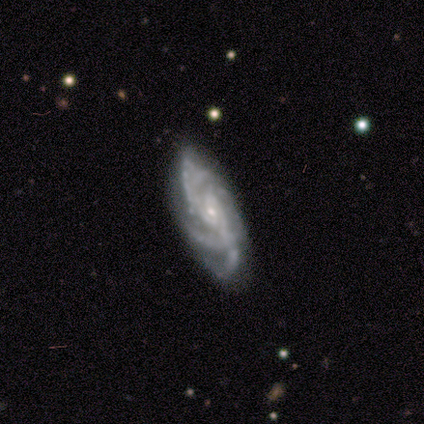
Smooth or featured?
  - featured or disk: 80% *
  - smooth: 20%
  - star or artifact: 0%
Edge-on disk?
  - no: 100% *
  - yes: 0%
Bar?
  - no: 50% *
  - strong: 25%
  - weak: 25%
Spiral arms?
  - yes: 100% *
  - no: 0%
Spiral winding?
  - medium: 75% *
  - tight: 25%
  - loose: 0%
Spiral arm count?
  - 4: 50% *
  - 2: 25%
  - more than 4: 25%
  - 1: 0%
  - 3: 0%
  - can't tell: 0%
Bulge size?
  - small: 100% *
  - dominant: 0%
  - large: 0%
  - moderate: 0%
  - none: 0%
Merging?
  - none: 60% *
  - minor disturbance: 20%
  - major disturbance: 20%
  - merger: 0%